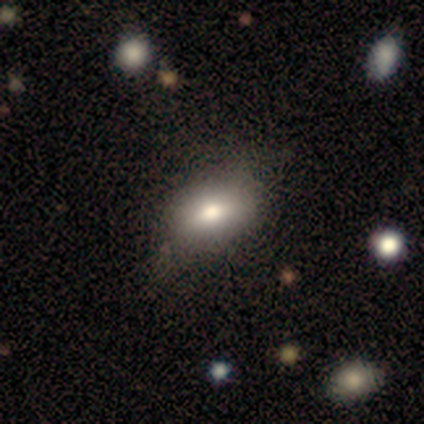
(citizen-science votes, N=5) This is clearly a smooth galaxy (80%). How rounded: likely in between (75%). Merging: possibly none (50%).